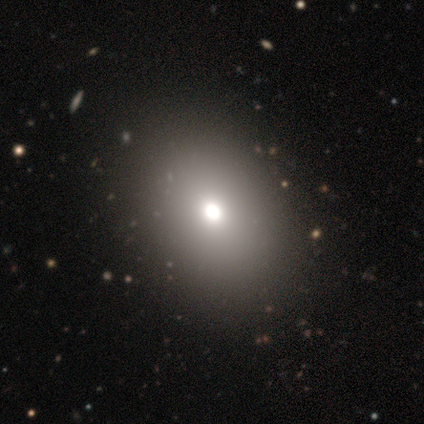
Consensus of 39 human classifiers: This appears to be a smooth galaxy with no disk features (74%) that is in between round and cigar-shaped (66%). Merging: none (71%).